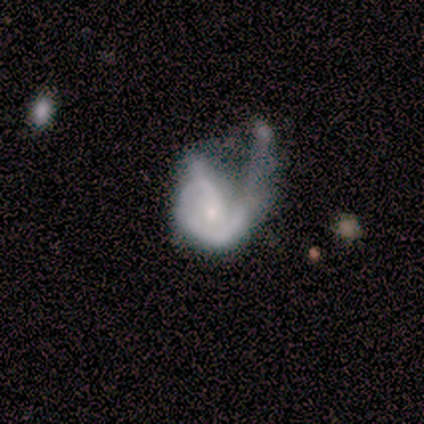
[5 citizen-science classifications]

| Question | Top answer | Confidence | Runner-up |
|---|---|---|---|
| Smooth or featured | featured or disk | 60% | smooth (40%) |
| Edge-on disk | no | 100% | — |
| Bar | no | 67% | weak (33%) |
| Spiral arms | no | 67% | yes (33%) |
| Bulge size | small | 67% | none (33%) |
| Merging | major disturbance | 80% | none (20%) |